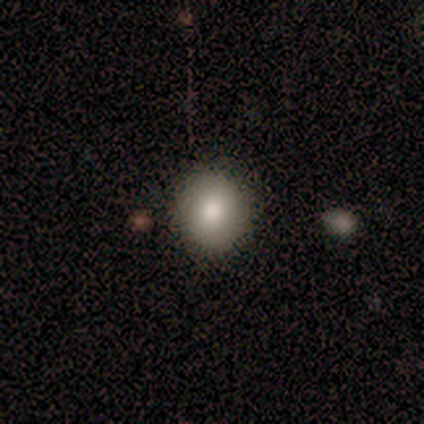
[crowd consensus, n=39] Volunteers were most divided on "smooth or featured": smooth: 77%, star or artifact: 13%, featured or disk: 10%. More confident: merging — none (88%); how rounded — round (83%).